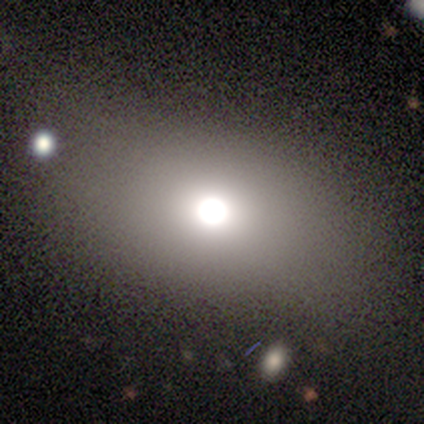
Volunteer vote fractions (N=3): smooth_or_featured: star or artifact (p=0.67) [alt: smooth p=0.33]